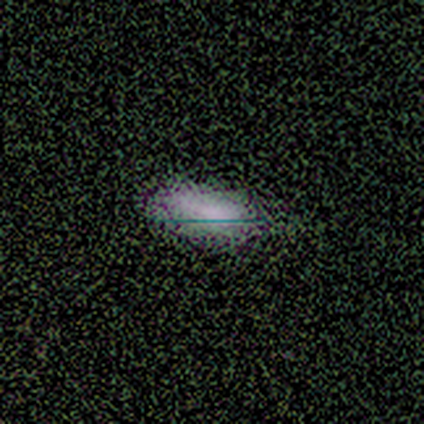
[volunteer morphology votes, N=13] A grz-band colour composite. It shows a smooth galaxy with no disk features (54%) that is in between round and cigar-shaped (100%). Merging: none (50%).